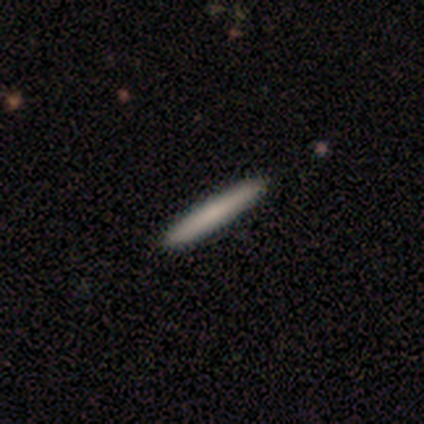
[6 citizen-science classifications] Smooth or featured? smooth (100%)
How rounded? cigar-shaped (100%)
Merging? none (100%)